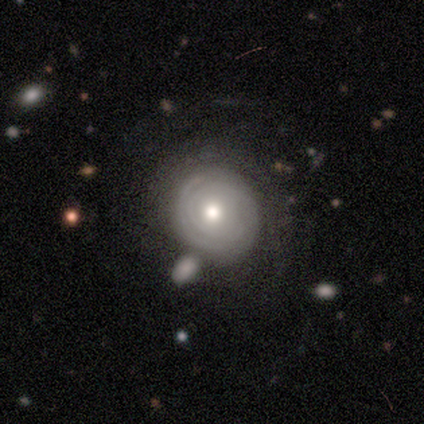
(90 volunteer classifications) A featured or disk galaxy (71%) with no bar (91%), tight (91%) spiral arms (72%) and a moderate central bulge (67%). Merging: none (48%).